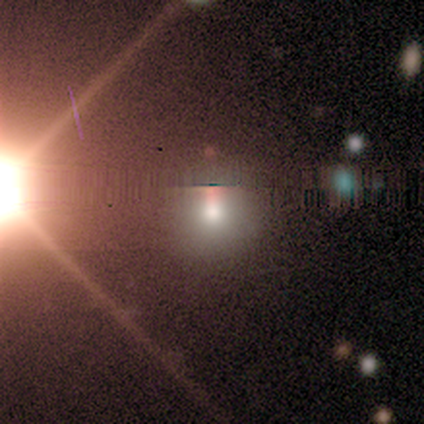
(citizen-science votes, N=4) Morphology: type=smooth (50%, tied with star or artifact); roundness=round (100%); merging=none (50%, tied with minor disturbance).